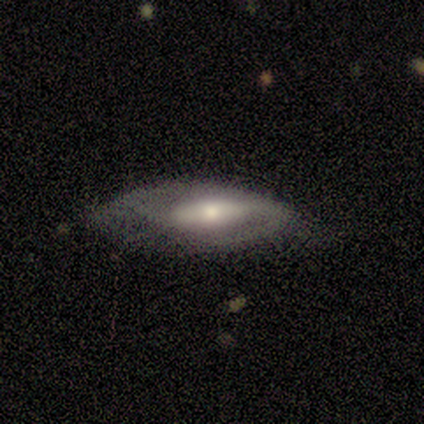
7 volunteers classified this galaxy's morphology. smooth_or_featured: featured or disk (p=0.57) [alt: smooth p=0.43]
disk_edge_on: no (p=0.75) [alt: yes p=0.25]
bar: strong (p=0.67) [alt: weak p=0.33]
has_spiral_arms: yes (p=1.00)
spiral_winding: medium (p=0.67) [alt: loose p=0.33]
spiral_arm_count: 2 (p=1.00)
bulge_size: small (p=0.67) [alt: moderate p=0.33]
merging: minor disturbance (p=0.43) [alt: none p=0.29]